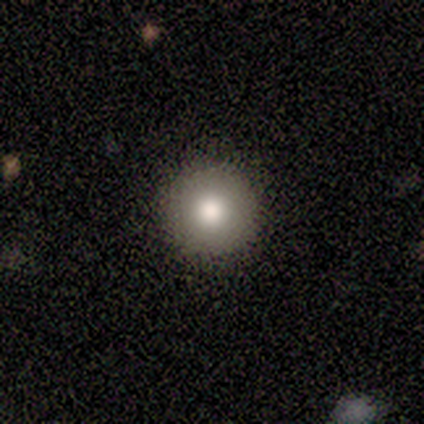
smooth-or-featured: smooth: 60% | featured or disk: 40% | star or artifact: 0%
  how-rounded: round: 100% | in between: 0% | cigar-shaped: 0%
  merging: none: 80% | minor disturbance: 20% | major disturbance: 0% | merger: 0%